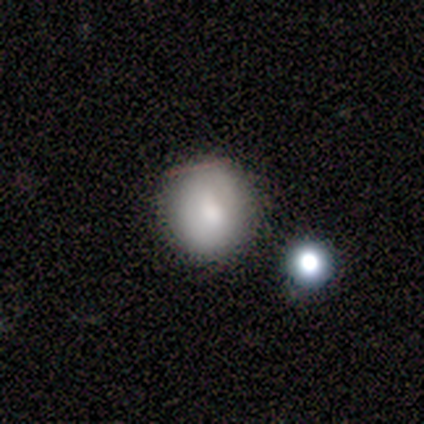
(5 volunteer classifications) Smooth or featured: smooth — 80% (featured or disk — 20%)
How rounded: round — 75% (in between — 25%)
Merging: none — 60% (minor disturbance — 40%)